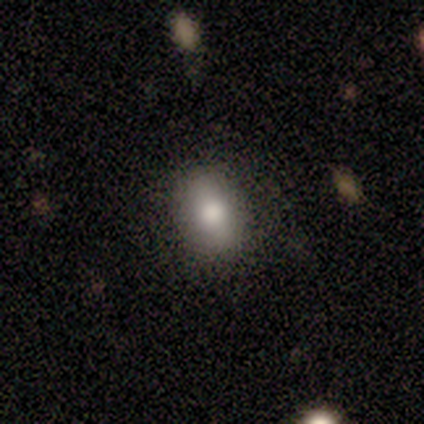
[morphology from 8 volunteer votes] Smooth or featured? smooth (88%)
How rounded? in between (100%)
Merging? none (75%)